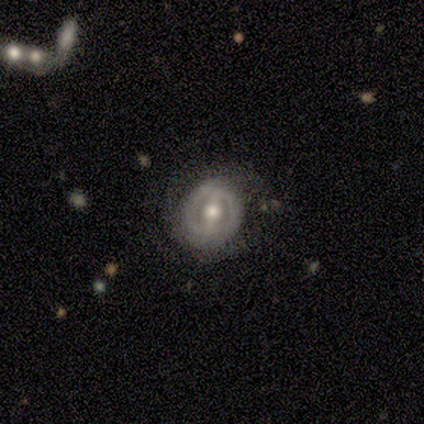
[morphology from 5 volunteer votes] smooth_or_featured: featured or disk (p=1.00)
disk_edge_on: no (p=1.00)
bar: weak (p=0.40) [tied with: no p=0.40]
has_spiral_arms: yes (p=0.80) [alt: no p=0.20]
spiral_winding: medium (p=0.75) [alt: loose p=0.25]
spiral_arm_count: can't tell (p=0.75) [alt: 2 p=0.25]
bulge_size: moderate (p=1.00)
merging: none (p=1.00)